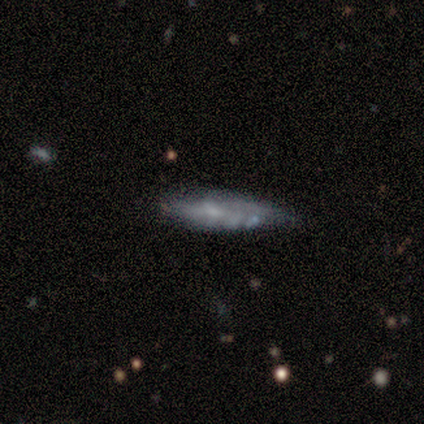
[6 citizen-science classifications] Morphology: type=featured or disk (67%); edge-on=yes (50%, tied with no); edge-on bulge=rounded (100%); merging=none (83%).